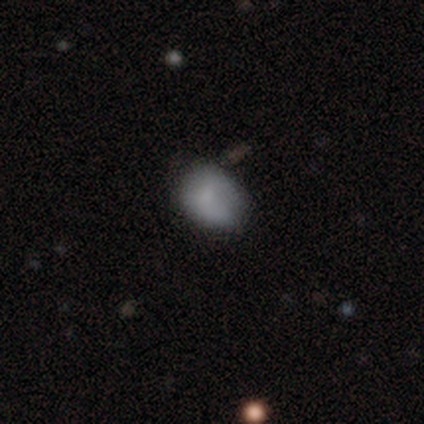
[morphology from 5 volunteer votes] Q: Smooth or featured?
A: smooth (100%)
Q: How rounded?
A: in between (60%); runner-up: round (40%)
Q: Merging?
A: none (40%); tied with: major disturbance (40%)